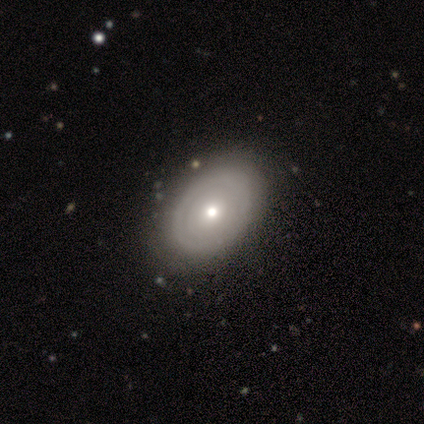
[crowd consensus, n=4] Smooth or featured? smooth (75%)
How rounded? in between (100%)
Merging? none (75%)